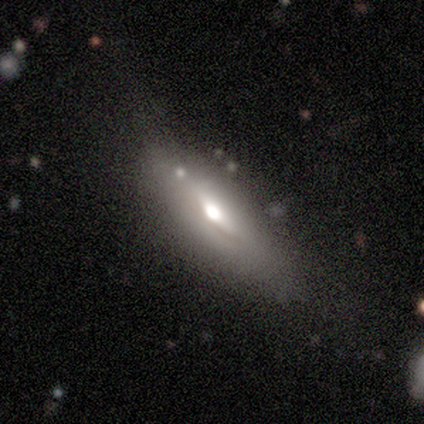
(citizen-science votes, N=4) Smooth or featured?
  - featured or disk: 75% *
  - smooth: 25%
  - star or artifact: 0%
Edge-on disk?
  - yes: 67% *
  - no: 33%
Edge-on bulge?
  - rounded: 100% *
  - boxy: 0%
  - none: 0%
Merging?
  - none: 50% *
  - minor disturbance: 25%
  - major disturbance: 25%
  - merger: 0%